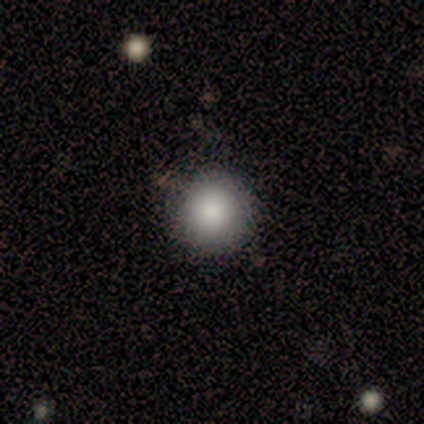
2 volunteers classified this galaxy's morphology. Smooth or featured: smooth — 100%
How rounded: round — 100%
Merging: none — 50% (tied with minor disturbance — 50%)